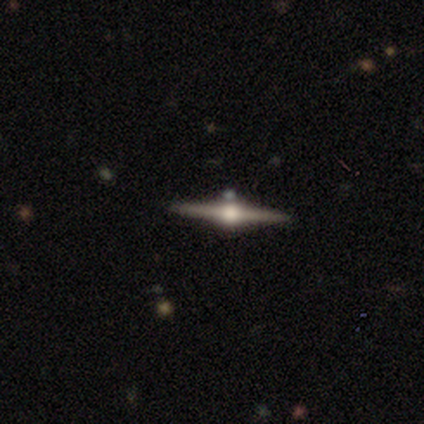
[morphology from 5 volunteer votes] Smooth or featured? 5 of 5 (100%) said featured or disk. Edge-on disk? 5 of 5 (100%) said yes. Edge-on bulge? 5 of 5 (100%) said rounded. Merging? 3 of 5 (60%) said none.